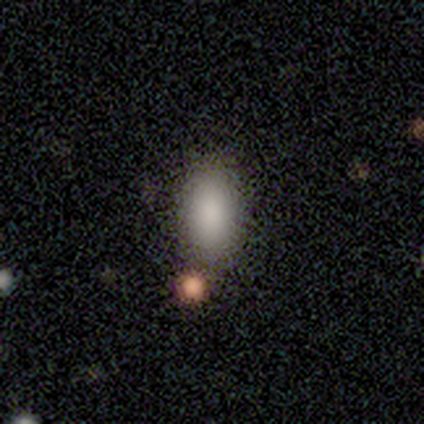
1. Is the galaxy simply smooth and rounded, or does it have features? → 80% smooth, 20% featured or disk, 0% star or artifact.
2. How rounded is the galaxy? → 75% in between, 25% round, 0% cigar-shaped.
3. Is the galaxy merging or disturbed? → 60% none, 40% merger, 0% minor disturbance, 0% major disturbance.